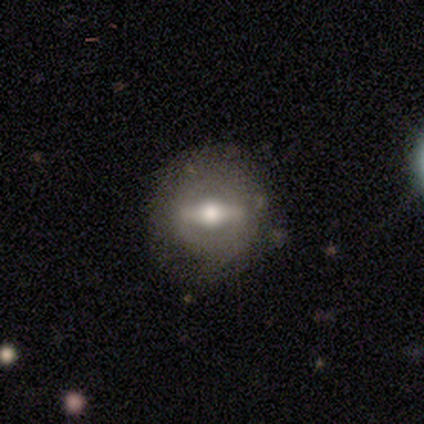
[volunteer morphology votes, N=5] This is marginally a smooth galaxy (40%, tied with featured or disk). How rounded: possibly round (50%, tied with in between). Merging: clearly none (100%).